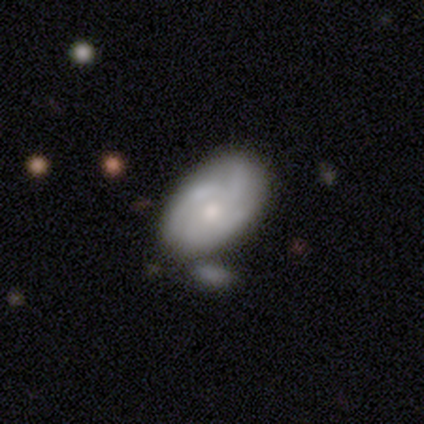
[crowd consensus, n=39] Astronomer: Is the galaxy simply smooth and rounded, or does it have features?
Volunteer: featured or disk — 69%.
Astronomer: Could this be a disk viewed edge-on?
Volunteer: no — 93%.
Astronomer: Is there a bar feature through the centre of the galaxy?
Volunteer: no — 84%.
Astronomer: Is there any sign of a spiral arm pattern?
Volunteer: yes — 84%.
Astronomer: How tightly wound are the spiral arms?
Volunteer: tight — 38%, tied with medium at 38%.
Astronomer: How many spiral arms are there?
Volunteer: can't tell — 38% (runner-up: 4, 33%).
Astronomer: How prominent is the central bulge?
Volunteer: moderate — 56% (runner-up: small, 44%).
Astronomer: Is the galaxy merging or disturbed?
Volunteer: none — 39% (runner-up: minor disturbance, 21%).